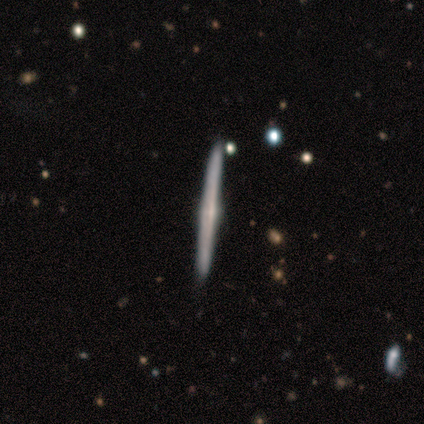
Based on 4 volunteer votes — This is possibly a smooth galaxy (50%, tied with featured or disk). How rounded: clearly cigar-shaped (100%). Merging: clearly none (100%).